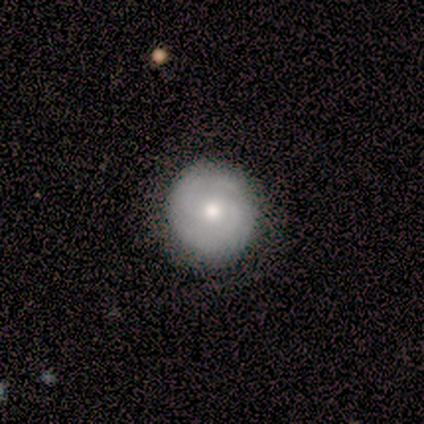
smooth-or-featured: featured or disk: 60% | smooth: 20% | star or artifact: 20%
  disk-edge-on: no: 100% | yes: 0%
    bar: strong: 33% (tied) | weak: 33% (tied) | no: 33% (tied)
    has-spiral-arms: yes: 100% | no: 0%
      spiral-winding: tight: 67% | medium: 33% | loose: 0%
      spiral-arm-count: 2: 100% | 1: 0% | 3: 0% | 4: 0% | more than 4: 0% | can't tell: 0%
    bulge-size: moderate: 100% | dominant: 0% | large: 0% | small: 0% | none: 0%
  merging: none: 100% | minor disturbance: 0% | major disturbance: 0% | merger: 0%